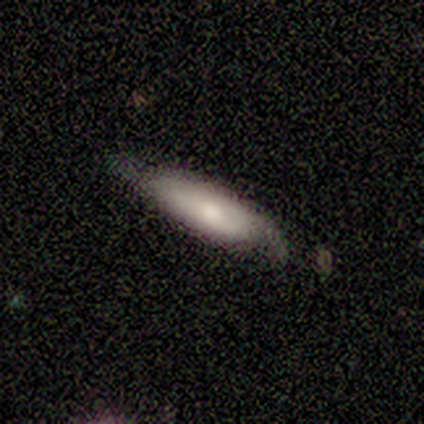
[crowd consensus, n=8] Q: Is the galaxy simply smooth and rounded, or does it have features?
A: featured or disk — 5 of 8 (62%).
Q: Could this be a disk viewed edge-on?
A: no — 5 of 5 (100%).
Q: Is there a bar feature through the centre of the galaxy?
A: no — 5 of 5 (100%).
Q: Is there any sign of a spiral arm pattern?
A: yes — 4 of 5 (80%).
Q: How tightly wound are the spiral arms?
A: medium — 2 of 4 (50%).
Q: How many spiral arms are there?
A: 2 — 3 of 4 (75%).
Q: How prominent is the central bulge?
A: moderate — 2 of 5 (40%, tied with small).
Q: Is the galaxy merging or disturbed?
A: none — 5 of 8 (62%).